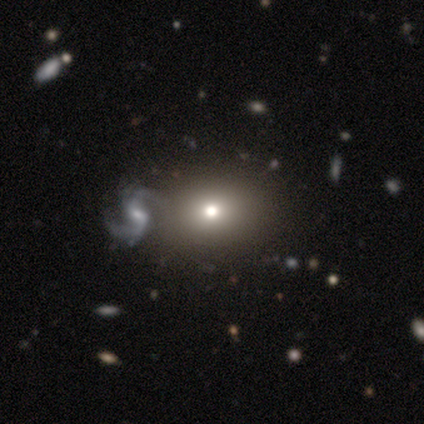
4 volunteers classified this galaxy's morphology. Smooth or featured? 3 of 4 (75%) said smooth. How rounded? 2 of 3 (67%) said round. Merging? 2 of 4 (50%) said none.